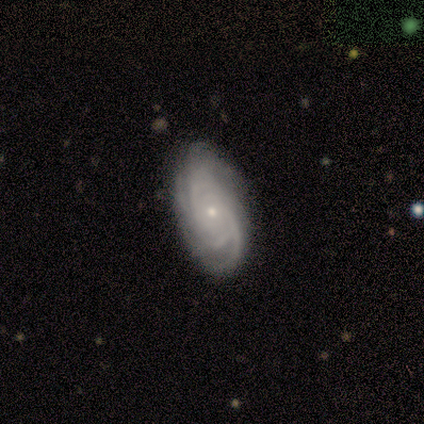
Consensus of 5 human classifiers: This appears to be a featured or disk galaxy (100%) with no bar (100%), 4 (60%) tight (80%) spiral arms (100%) and a small central bulge (100%). Merging: none (100%).